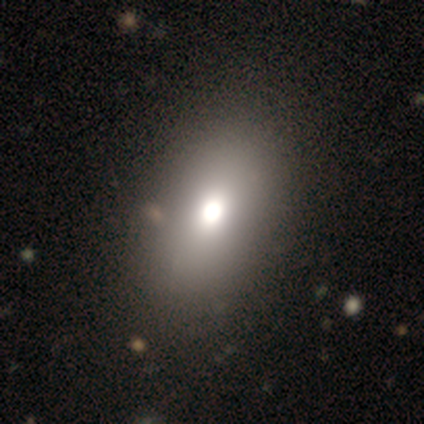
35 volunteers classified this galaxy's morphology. Overall: smooth (80%). How rounded: in between (86%). Merging: none (78%).